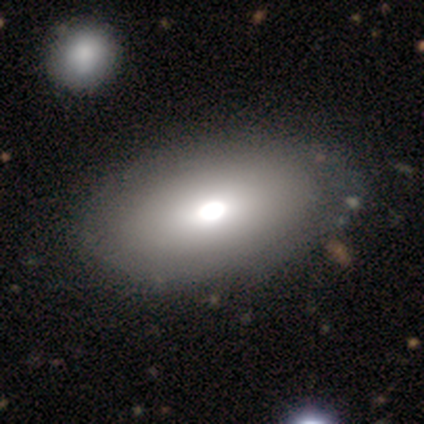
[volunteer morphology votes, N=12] Smooth or featured? 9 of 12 (75%) said smooth. How rounded? 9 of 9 (100%) said in between. Merging? 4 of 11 (36%, tied with merger) said none.